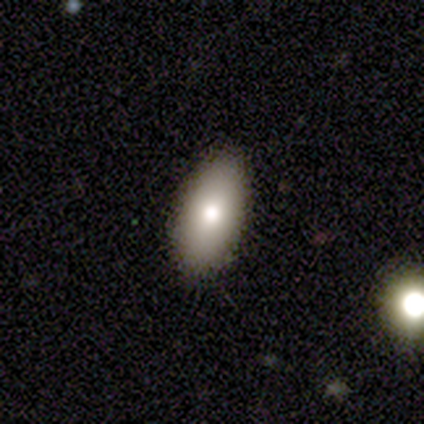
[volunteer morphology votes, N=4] A smooth galaxy with no disk features (75%) that is in between round and cigar-shaped (100%). Merging: none (100%).